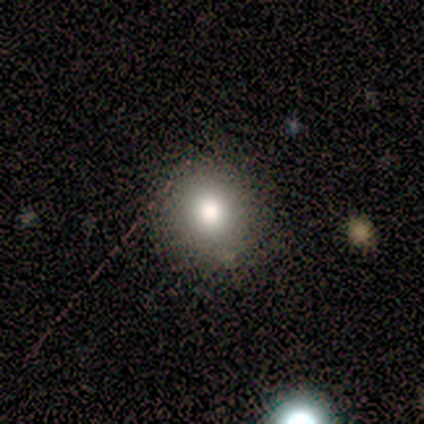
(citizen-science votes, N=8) Overall: smooth (88%). How rounded: round (100%). Merging: none (88%).